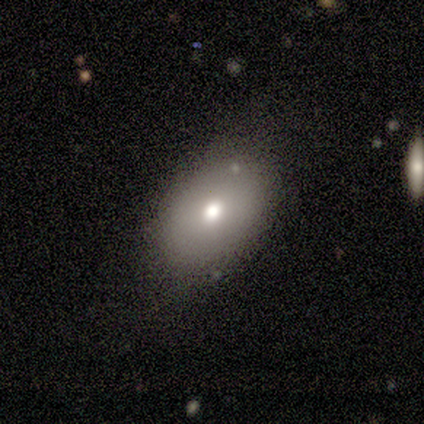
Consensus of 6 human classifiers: Smooth or featured: smooth — 100%
How rounded: in between — 83% (round — 17%)
Merging: none — 83% (minor disturbance — 17%)